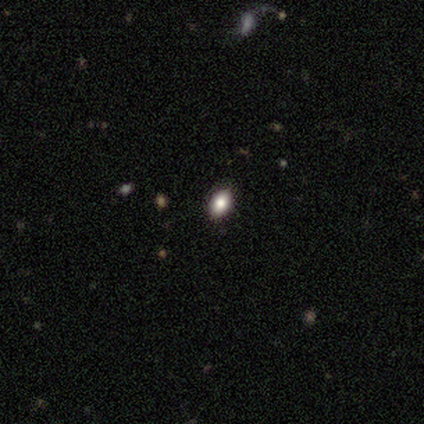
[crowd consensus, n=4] A smooth galaxy with no disk features (75%) that is in between round and cigar-shaped (100%). Merging: none (100%).